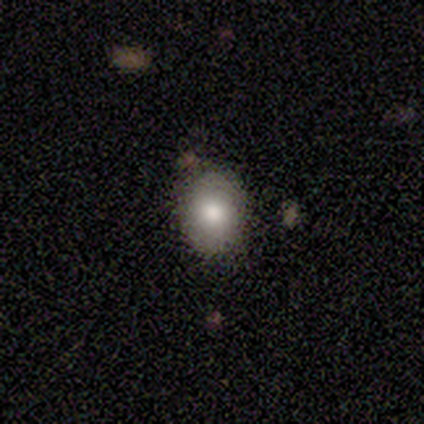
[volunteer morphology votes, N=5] A smooth galaxy with no disk features (80%) that is in between round and cigar-shaped (75%).

Vote fractions:
- Smooth or featured? smooth: 80% / star or artifact: 20% / featured or disk: 0%
- How rounded? in between: 75% / round: 25% / cigar-shaped: 0%
- Merging? none: 100% / minor disturbance: 0% / major disturbance: 0% / merger: 0%